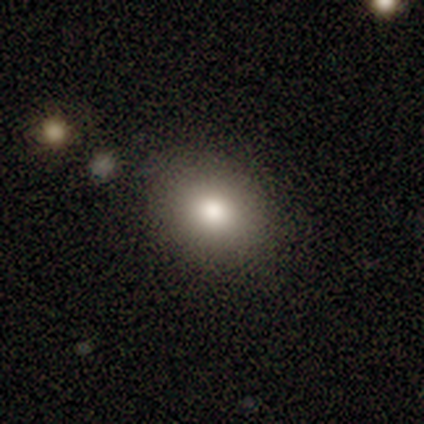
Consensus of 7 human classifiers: Smooth or featured? 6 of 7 (86%) said smooth. How rounded? 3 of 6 (50%, tied with in between) said round. Merging? 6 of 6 (100%) said none.